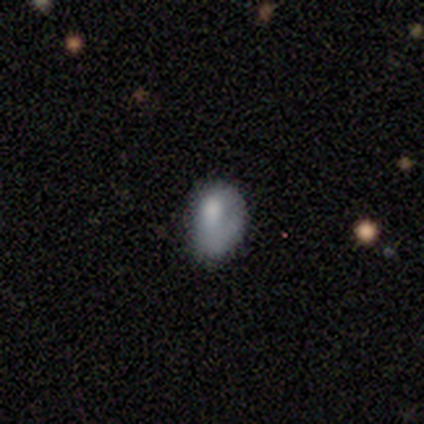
This is likely a smooth galaxy (75%). How rounded: likely in between (67%). Merging: likely minor disturbance (75%).